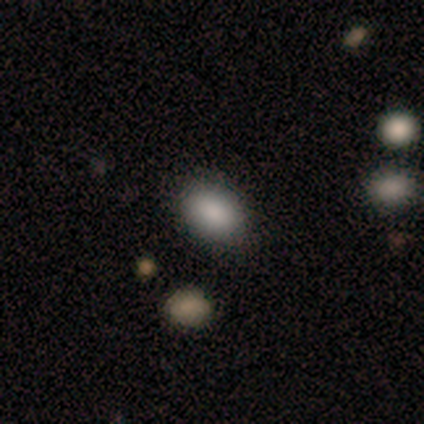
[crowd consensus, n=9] Morphology: type=smooth (89%); roundness=in between (88%); merging=none (78%).